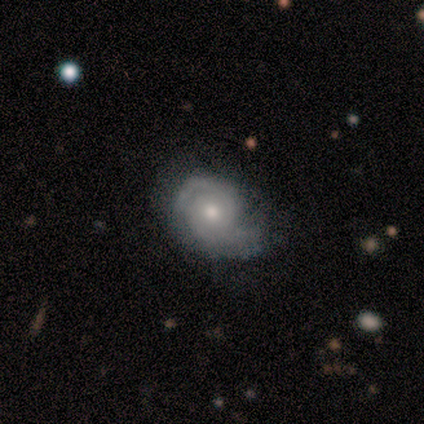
Overall: featured or disk (75%). Edge-on disk: no (100%). Bar: no (67%; weak 33%). Spiral arms: yes (100%). Spiral arm count: 2 (67%; can't tell 33%). Spiral winding: tight (33%, tied with medium and loose). Bulge size: moderate (67%; small 33%). Merging: none (33%, tied with minor disturbance and major disturbance).